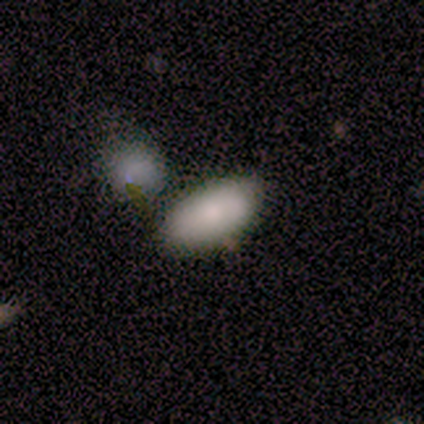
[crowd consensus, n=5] A smooth galaxy with no disk features (80%) that is in between round and cigar-shaped (100%).

Vote fractions:
- Smooth or featured? smooth: 80% / featured or disk: 20% / star or artifact: 0%
- How rounded? in between: 100% / round: 0% / cigar-shaped: 0%
- Merging? none: 80% / merger: 20% / minor disturbance: 0% / major disturbance: 0%